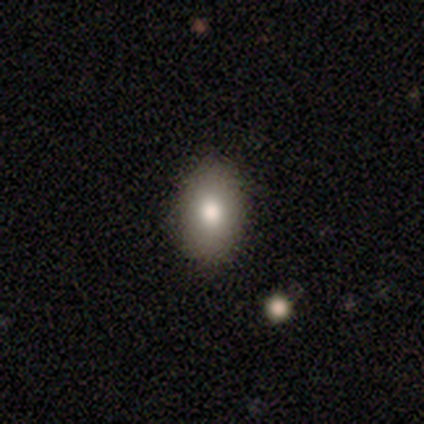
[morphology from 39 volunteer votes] This is clearly a smooth galaxy (85%). How rounded: clearly in between (82%). Merging: clearly none (92%).